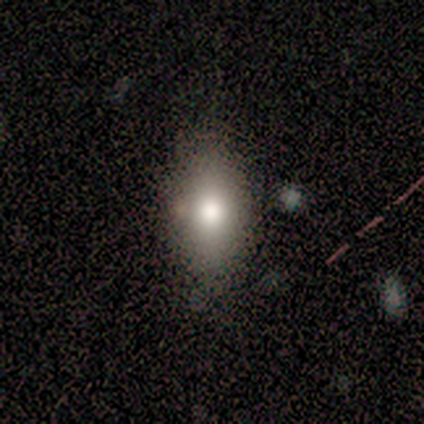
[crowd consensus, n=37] Q: Smooth or featured?
A: smooth (84%); runner-up: featured or disk (8%)
Q: How rounded?
A: in between (87%); runner-up: round (10%)
Q: Merging?
A: none (79%); runner-up: minor disturbance (9%)